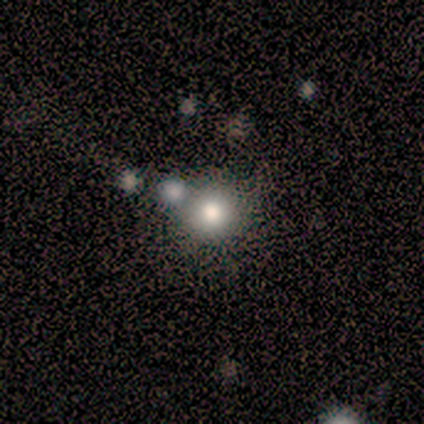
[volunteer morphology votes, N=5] star or artifact 60%, smooth 40%, featured or disk 0%.